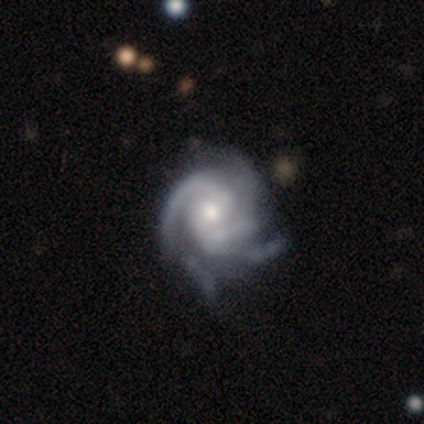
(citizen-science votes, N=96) This is clearly a featured or disk galaxy (91%). It is clearly not viewed edge-on (98%). Bar: possibly no (53%). Spiral arm pattern: clearly yes (100%). Spiral arm count: marginally 4 (36%). Spiral winding: possibly tight (59%). Central bulge: likely moderate (61%). Merging: likely none (69%).